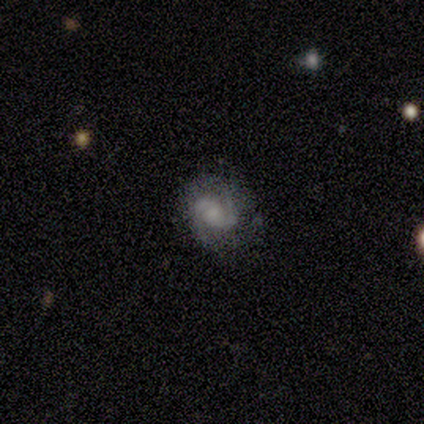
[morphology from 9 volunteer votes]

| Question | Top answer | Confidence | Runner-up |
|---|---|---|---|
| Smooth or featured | featured or disk | 78% | smooth (22%) |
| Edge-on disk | no | 100% | — |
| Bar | no | 57% | weak (29%) |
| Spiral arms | yes | 100% | — |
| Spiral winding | tight | 43% | medium (29%) |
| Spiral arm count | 2 | 86% | can't tell (14%) |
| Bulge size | moderate | 57% | none (29%) |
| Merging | none | 89% | minor disturbance (11%) |